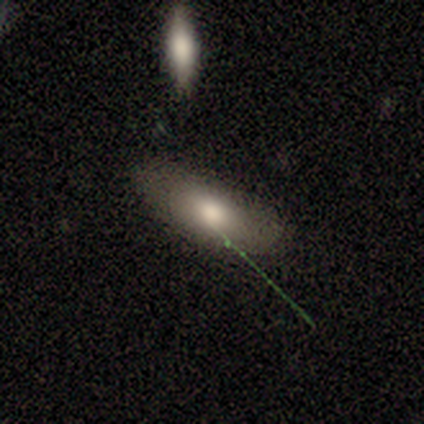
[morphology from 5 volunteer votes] Volunteers were most divided on "merging": none: 60%, minor disturbance: 40%, major disturbance: 0%, merger: 0%. More confident: smooth or featured — smooth (80%); how rounded — in between (75%).